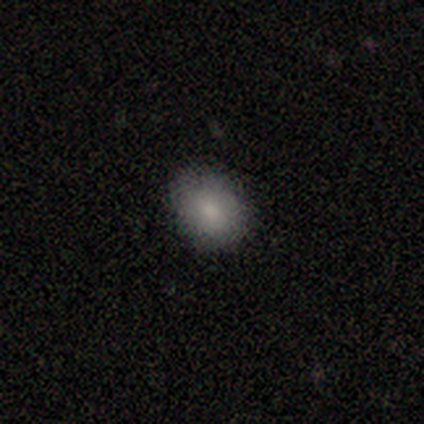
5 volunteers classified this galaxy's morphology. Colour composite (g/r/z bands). It shows a smooth galaxy with no disk features (80%) that is round (75%). Merging: none (100%).